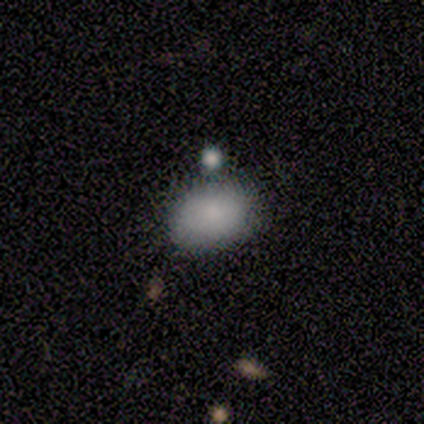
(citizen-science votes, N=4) This appears to be a smooth galaxy with no disk features (75%) that is in between round and cigar-shaped (100%). Merging: none (67%).